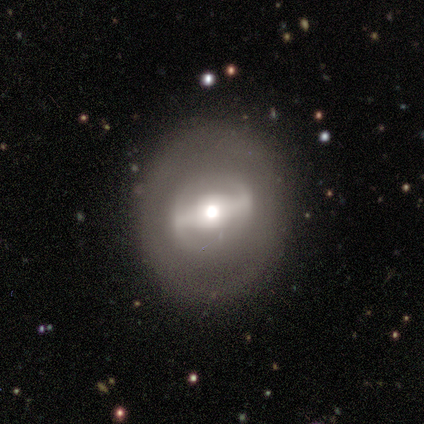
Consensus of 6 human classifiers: Smooth or featured? smooth (50%, tied with featured or disk)
How rounded? round (67%)
Merging? none (67%)